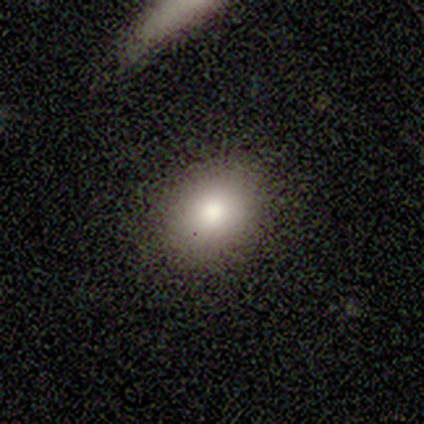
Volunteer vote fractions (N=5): Volunteers were most divided on "how rounded": in between: 80%, round: 20%, cigar-shaped: 0%. More confident: smooth or featured — smooth (100%); merging — none (100%).